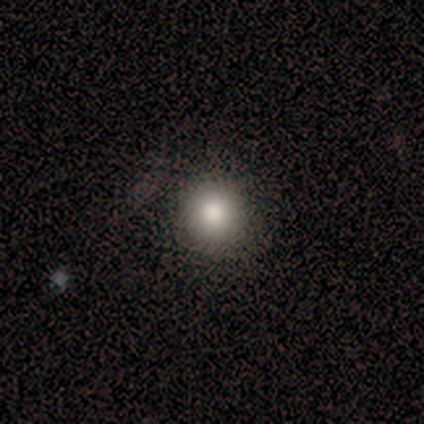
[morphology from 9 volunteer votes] Smooth or featured: smooth — 78% (star or artifact — 22%)
How rounded: round — 100%
Merging: none — 86% (minor disturbance — 14%)